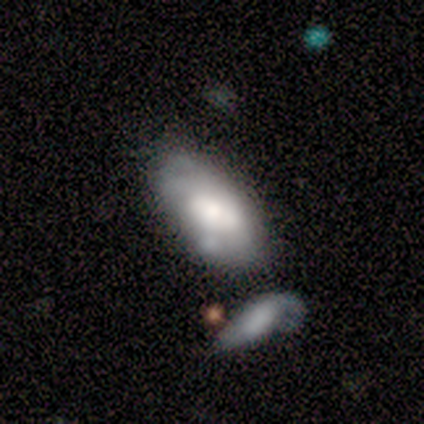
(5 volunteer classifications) smooth 80%, featured or disk 20%, star or artifact 0%. Down the decision tree: how rounded — in between (100%); merging — none (60%).